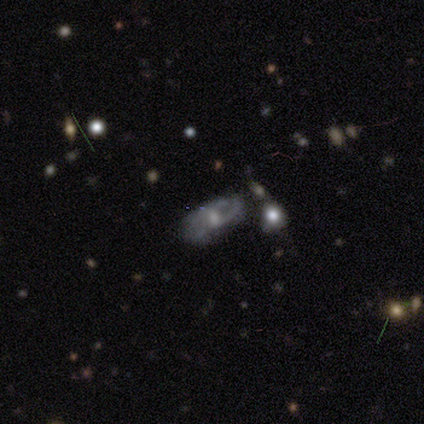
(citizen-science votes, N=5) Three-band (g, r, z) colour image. It shows a featured or disk galaxy (60%) with a weak bar (50%, tied with no), no spiral arms (100%) and a large central bulge (50%, tied with moderate). Merging: none (50%, tied with minor disturbance).